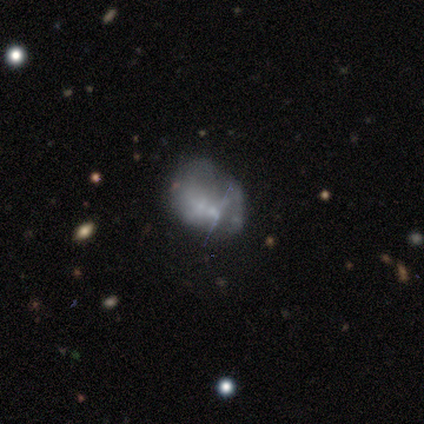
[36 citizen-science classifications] This appears to be a featured or disk galaxy (56%) with no bar (90%), no spiral arms (85%) and no central bulge (55%). Merging: none (38%).